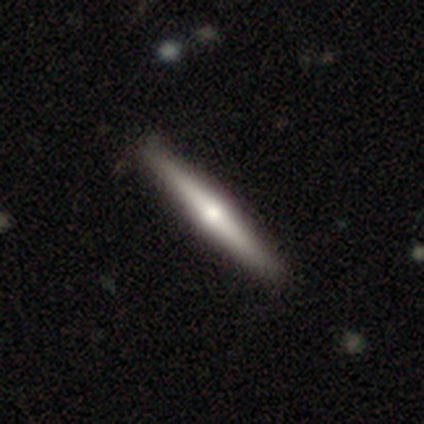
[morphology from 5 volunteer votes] Q: Smooth or featured?
A: featured or disk (60%); runner-up: smooth (40%)
Q: Edge-on disk?
A: yes (100%)
Q: Edge-on bulge?
A: rounded (100%)
Q: Merging?
A: none (80%); runner-up: minor disturbance (20%)